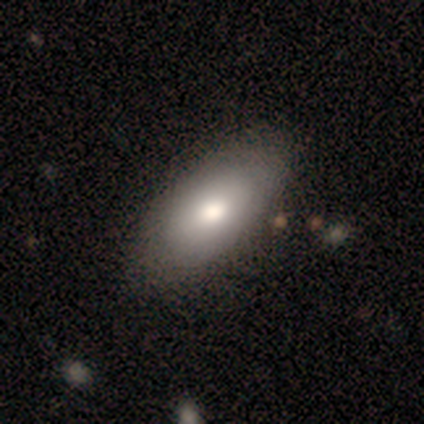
Volunteers were most divided on "merging": minor disturbance: 60%, none: 40%, major disturbance: 0%, merger: 0%. More confident: smooth or featured — smooth (80%); how rounded — in between (75%).